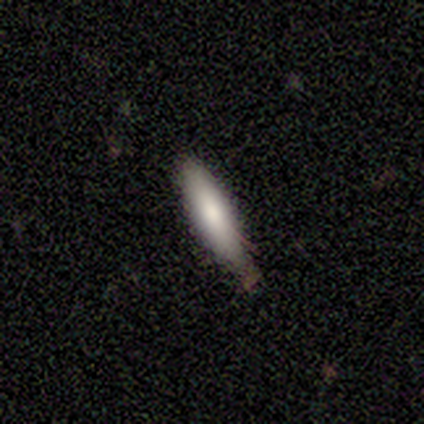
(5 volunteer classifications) Smooth or featured?
  - smooth: 80% *
  - featured or disk: 20%
  - star or artifact: 0%
How rounded?
  - in between: 50% * (tied)
  - cigar-shaped: 50% * (tied)
  - round: 0%
Merging?
  - none: 60% *
  - minor disturbance: 40%
  - major disturbance: 0%
  - merger: 0%